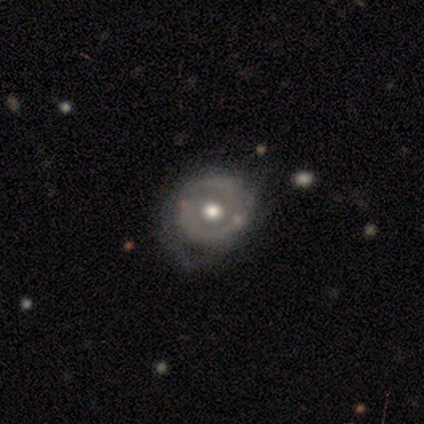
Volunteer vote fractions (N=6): Q: Smooth or featured?
A: featured or disk (67%); runner-up: smooth (33%)
Q: Edge-on disk?
A: no (100%)
Q: Bar?
A: no (75%); runner-up: weak (25%)
Q: Spiral arms?
A: yes (75%); runner-up: no (25%)
Q: Spiral winding?
A: tight (67%); runner-up: medium (33%)
Q: Spiral arm count?
A: 2 (67%); runner-up: 1 (33%)
Q: Bulge size?
A: moderate (100%)
Q: Merging?
A: none (50%); runner-up: minor disturbance (33%)